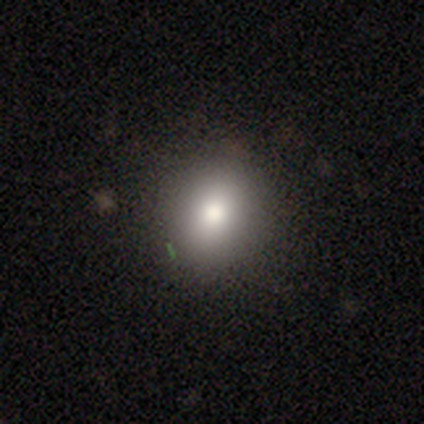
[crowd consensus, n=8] A smooth galaxy with no disk features (75%) that is round (50%, tied with in between). Merging: none (100%).